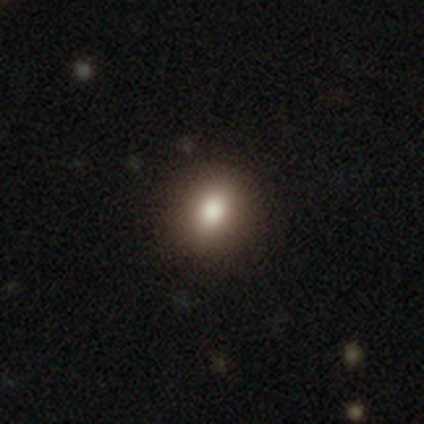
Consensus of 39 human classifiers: Smooth or featured?
  - smooth: 82% *
  - star or artifact: 15%
  - featured or disk: 3%
How rounded?
  - round: 62% *
  - in between: 38%
  - cigar-shaped: 0%
Merging?
  - none: 97% *
  - minor disturbance: 3%
  - major disturbance: 0%
  - merger: 0%